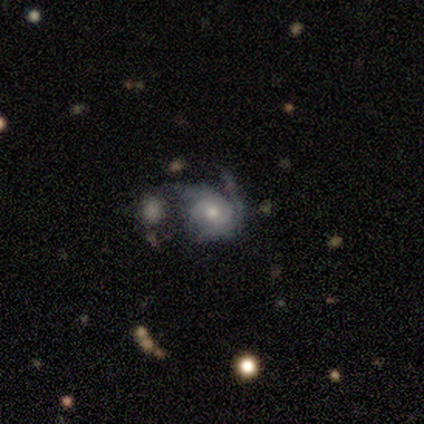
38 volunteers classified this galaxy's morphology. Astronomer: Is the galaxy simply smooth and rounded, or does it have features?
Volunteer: featured or disk — 87%.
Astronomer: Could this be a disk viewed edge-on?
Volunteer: no — 97%.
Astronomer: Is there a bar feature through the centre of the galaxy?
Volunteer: no — 75%.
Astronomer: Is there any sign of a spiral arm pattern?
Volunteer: yes — 94%.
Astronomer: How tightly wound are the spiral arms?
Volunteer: tight — 50% (runner-up: loose, 30%).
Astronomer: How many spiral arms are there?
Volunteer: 2 — 37% (runner-up: can't tell, 30%).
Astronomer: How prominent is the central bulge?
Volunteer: moderate — 69%.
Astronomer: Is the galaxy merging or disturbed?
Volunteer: none — 37% (runner-up: merger, 29%).